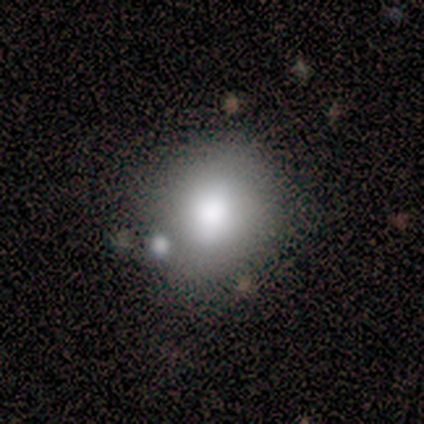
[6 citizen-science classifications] This appears to be a smooth galaxy with no disk features (83%) that is round (80%). Merging: none (80%).